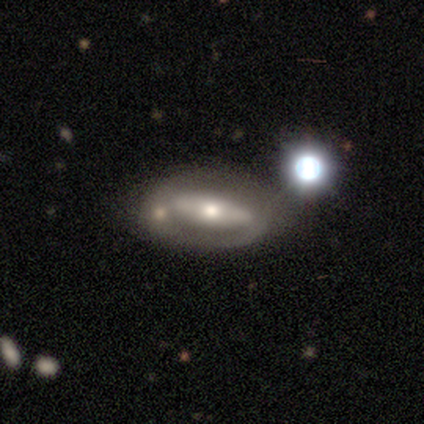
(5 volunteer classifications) Smooth or featured? featured or disk (80%)
Edge-on disk? yes (50%, tied with no)
Edge-on bulge? rounded (100%)
Merging? none (40%)